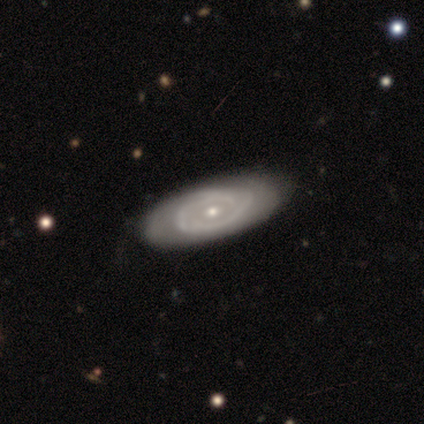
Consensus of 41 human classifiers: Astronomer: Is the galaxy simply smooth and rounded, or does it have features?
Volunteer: featured or disk — 85%.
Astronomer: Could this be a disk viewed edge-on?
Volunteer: no — 94%.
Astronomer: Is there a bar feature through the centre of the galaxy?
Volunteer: no — 91%.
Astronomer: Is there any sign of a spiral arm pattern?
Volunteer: yes — 58% (runner-up: no, 42%).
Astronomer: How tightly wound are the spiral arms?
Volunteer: tight — 47%, tied with medium at 47%.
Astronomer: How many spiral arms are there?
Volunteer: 2 — 42% (runner-up: can't tell, 37%).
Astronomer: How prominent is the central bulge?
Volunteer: small — 52% (runner-up: moderate, 45%).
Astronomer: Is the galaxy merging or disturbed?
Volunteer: none — 44%.